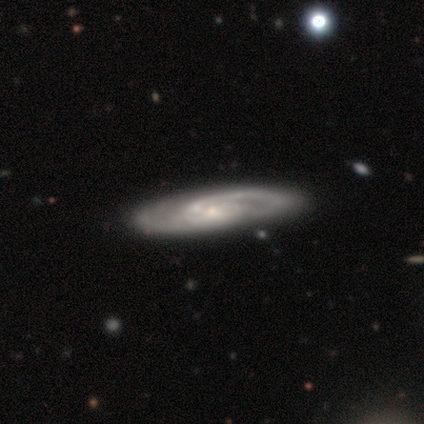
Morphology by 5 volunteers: Volunteers were most divided on "bulge size": small: 60%, none: 40%, dominant: 0%, large: 0%, moderate: 0%. More confident: smooth or featured — featured or disk (100%); edge-on disk — no (100%); merging — none (100%); bar — no (80%); spiral arms — yes (80%); spiral winding — tight (50%); spiral arm count — 1 (50%).